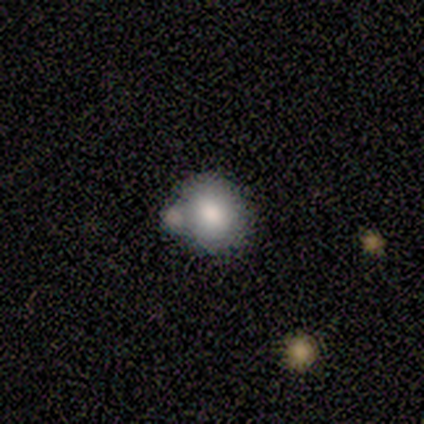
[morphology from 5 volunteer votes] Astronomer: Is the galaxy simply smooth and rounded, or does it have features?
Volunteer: smooth — 60% (runner-up: featured or disk, 40%).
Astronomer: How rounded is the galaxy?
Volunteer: round — 67%.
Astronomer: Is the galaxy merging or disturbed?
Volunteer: none — 40%, tied with minor disturbance at 40%.